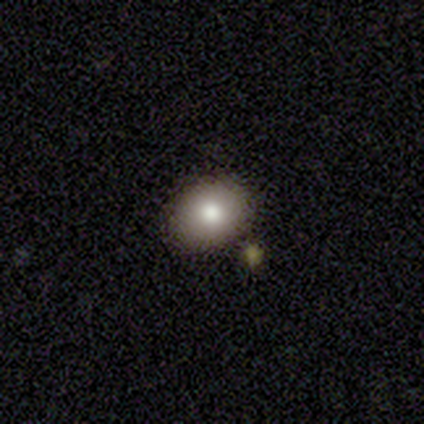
smooth 100%, featured or disk 0%, star or artifact 0%. Down the decision tree: how rounded — round (67%); merging — none (100%).